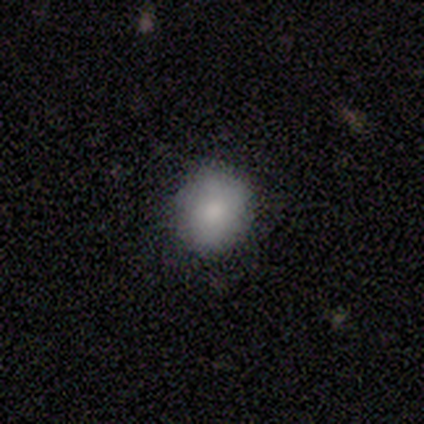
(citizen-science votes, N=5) smooth-or-featured: smooth: 100% | featured or disk: 0% | star or artifact: 0%
  how-rounded: round: 80% | in between: 20% | cigar-shaped: 0%
  merging: none: 80% | minor disturbance: 20% | major disturbance: 0% | merger: 0%